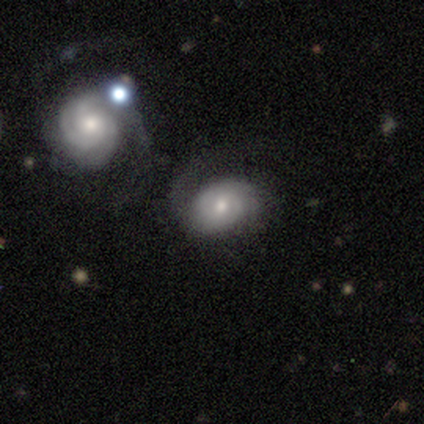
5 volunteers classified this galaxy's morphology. This appears to be a smooth galaxy with no disk features (80%) that is in between round and cigar-shaped (100%). Merging: none (40%, tied with merger).